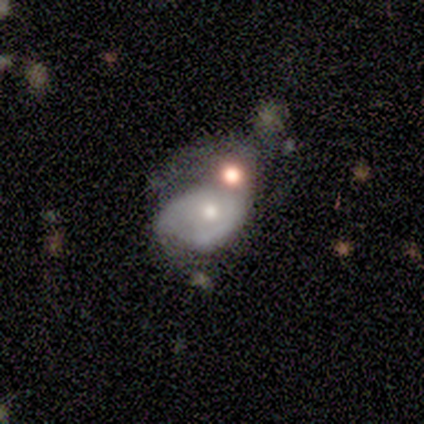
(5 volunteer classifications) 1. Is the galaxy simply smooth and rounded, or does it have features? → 60% featured or disk, 20% smooth, 20% star or artifact.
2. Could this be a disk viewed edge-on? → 100% no, 0% yes.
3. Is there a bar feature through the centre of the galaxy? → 67% no, 33% strong, 0% weak.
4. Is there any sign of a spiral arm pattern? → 67% no, 33% yes.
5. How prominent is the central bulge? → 67% small, 33% moderate, 0% dominant, 0% large, 0% none.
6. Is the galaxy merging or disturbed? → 50% minor disturbance, 25% none, 25% merger, 0% major disturbance.